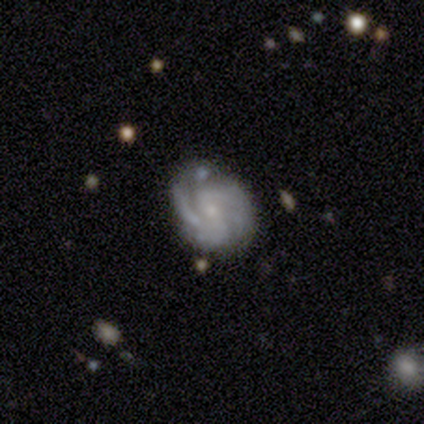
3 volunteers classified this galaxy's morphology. Overall: featured or disk (100%). Edge-on disk: no (100%). Bar: weak (67%; strong 33%). Spiral arms: yes (100%). Spiral arm count: 2 (33%, tied with 3 and 4). Spiral winding: tight (67%; medium 33%). Bulge size: small (100%). Merging: none (100%).